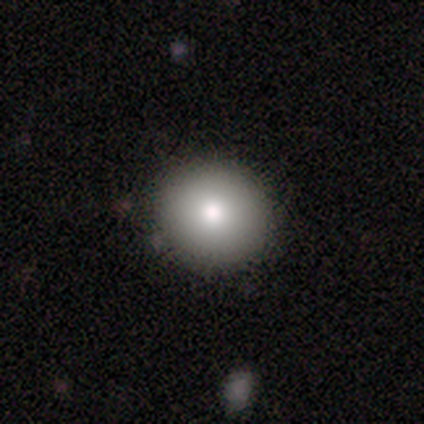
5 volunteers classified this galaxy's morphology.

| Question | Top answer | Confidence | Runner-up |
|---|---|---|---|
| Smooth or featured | smooth | 100% | — |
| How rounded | round | 100% | — |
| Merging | none | 100% | — |